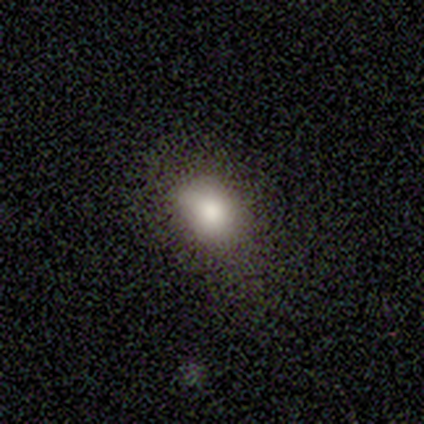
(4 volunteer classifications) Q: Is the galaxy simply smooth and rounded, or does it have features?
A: smooth — 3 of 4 (75%).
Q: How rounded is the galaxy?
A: in between — 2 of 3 (67%).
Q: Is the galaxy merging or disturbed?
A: none — 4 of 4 (100%).